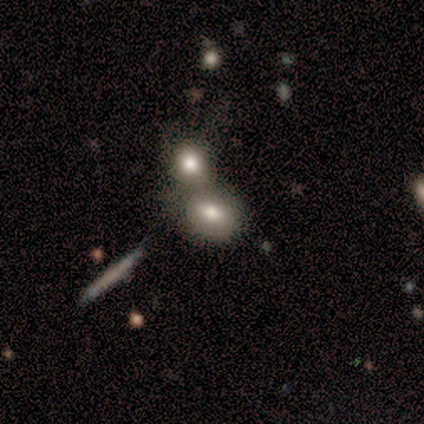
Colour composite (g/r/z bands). It shows a smooth galaxy with no disk features (60%) that is in between round and cigar-shaped (100%). Merging: none (50%, tied with merger).